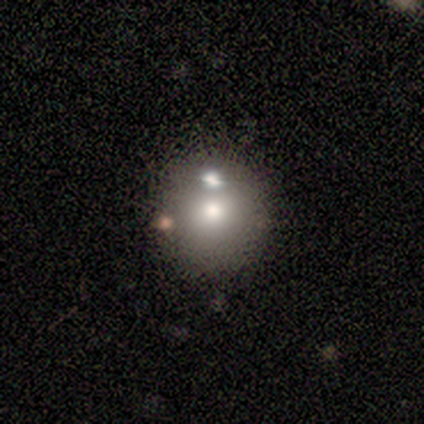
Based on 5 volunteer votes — Volunteers were most divided on "merging" (2-way tie): none: 40%, merger: 40%, minor disturbance: 20%, major disturbance: 0%. More confident: smooth or featured — smooth (100%); how rounded — round (80%).